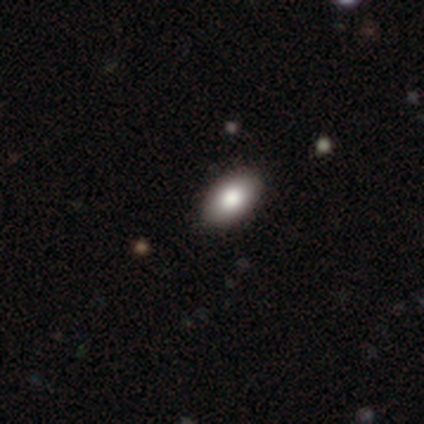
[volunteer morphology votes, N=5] Smooth or featured? smooth (80%)
How rounded? in between (75%)
Merging? none (100%)